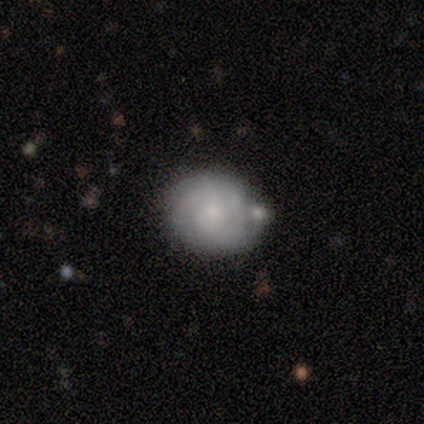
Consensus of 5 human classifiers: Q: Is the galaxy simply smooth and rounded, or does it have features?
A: smooth — 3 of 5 (60%).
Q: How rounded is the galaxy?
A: round — 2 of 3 (67%).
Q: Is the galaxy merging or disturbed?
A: none — 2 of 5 (40%, tied with minor disturbance).